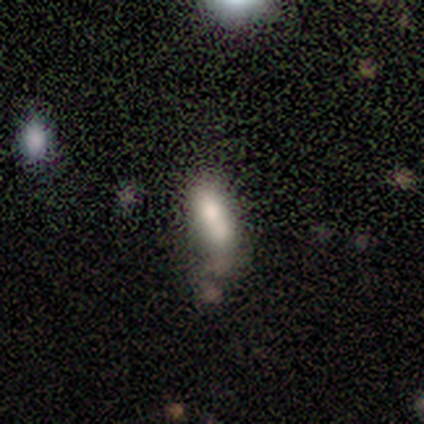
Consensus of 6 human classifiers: Smooth or featured? 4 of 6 (67%) said smooth. How rounded? 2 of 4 (50%, tied with cigar-shaped) said in between. Merging? 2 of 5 (40%, tied with merger) said minor disturbance.